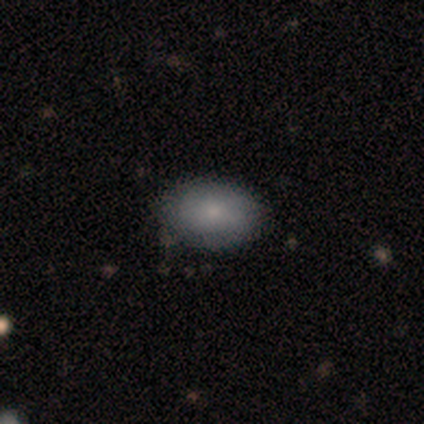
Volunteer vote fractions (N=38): Smooth or featured? smooth (82%)
How rounded? in between (81%)
Merging? none (81%)